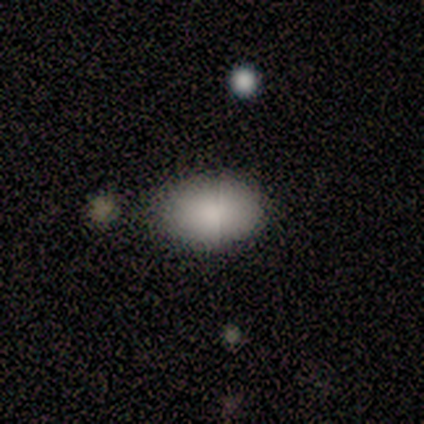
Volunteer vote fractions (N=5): Overall: smooth (100%). How rounded: in between (100%). Merging: none (60%; minor disturbance 40%).